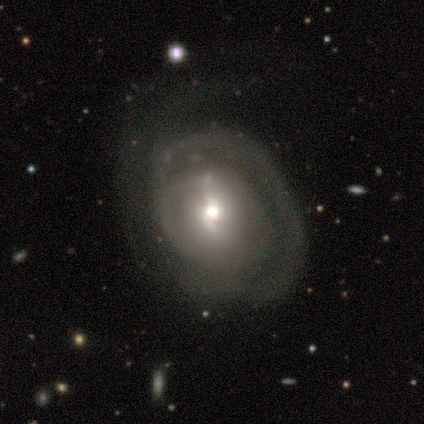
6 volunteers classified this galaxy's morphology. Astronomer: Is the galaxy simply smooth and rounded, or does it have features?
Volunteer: featured or disk — 100%.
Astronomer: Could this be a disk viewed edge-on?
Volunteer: no — 100%.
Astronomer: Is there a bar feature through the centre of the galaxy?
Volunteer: weak — 67%.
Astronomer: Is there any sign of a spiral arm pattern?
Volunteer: yes — 83%.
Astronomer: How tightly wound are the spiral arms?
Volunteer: tight — 60% (runner-up: medium, 40%).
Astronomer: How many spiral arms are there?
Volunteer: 1 — 60% (runner-up: can't tell, 40%).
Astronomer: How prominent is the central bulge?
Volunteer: small — 67%.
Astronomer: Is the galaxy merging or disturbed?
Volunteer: none — 67%.